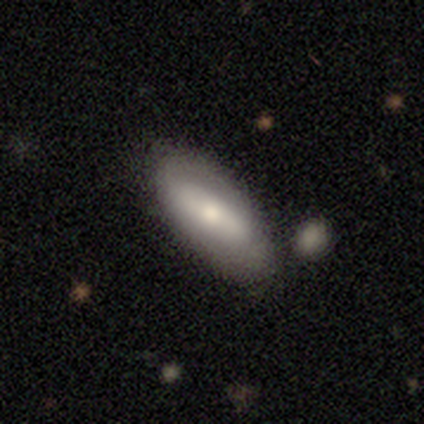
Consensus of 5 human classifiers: Morphology: type=smooth (80%); roundness=in between (100%); merging=none (100%).